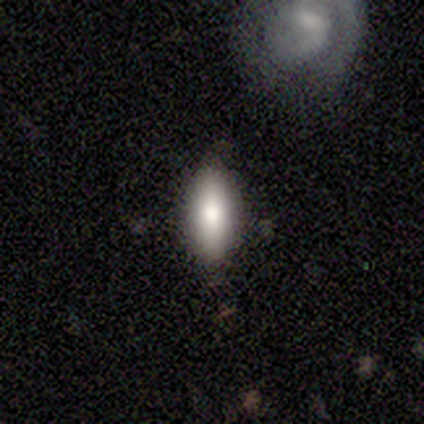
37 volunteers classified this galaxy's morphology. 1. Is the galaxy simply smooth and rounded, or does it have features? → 76% smooth, 14% featured or disk, 11% star or artifact.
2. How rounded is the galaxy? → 68% in between, 29% cigar-shaped, 4% round.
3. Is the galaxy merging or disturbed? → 88% none, 12% minor disturbance, 0% major disturbance, 0% merger.